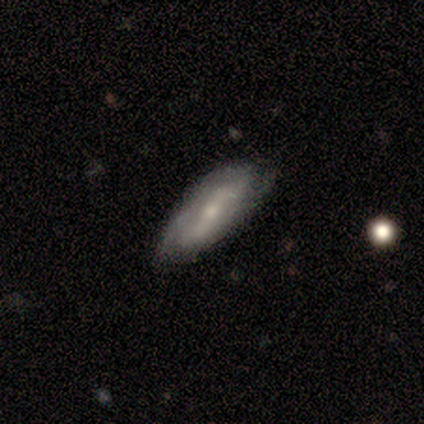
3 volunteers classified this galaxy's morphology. type=smooth (67%); roundness=in between (100%); merging=none (100%).